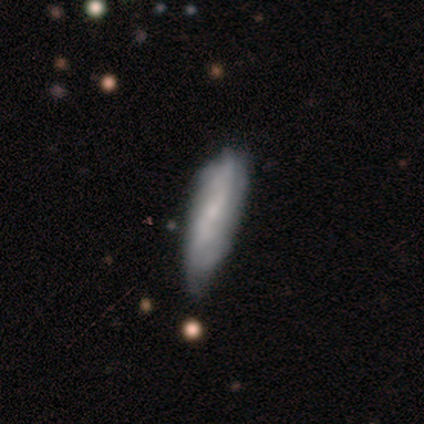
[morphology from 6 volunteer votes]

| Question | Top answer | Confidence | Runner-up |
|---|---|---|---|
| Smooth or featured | featured or disk | 83% | smooth (17%) |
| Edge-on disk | no | 60% | yes (40%) |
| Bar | no | 67% | weak (33%) |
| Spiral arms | yes | 67% | no (33%) |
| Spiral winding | loose | 100% | — |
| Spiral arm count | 2 | 50% | tied: can't tell (50%) |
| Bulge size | small | 100% | — |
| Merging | none | 50% | tied: minor disturbance (50%) |